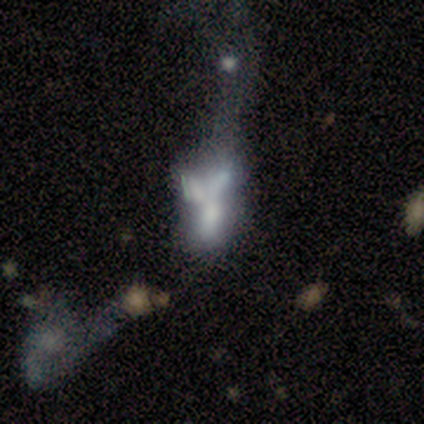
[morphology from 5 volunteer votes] This is likely a featured or disk galaxy (60%). It is likely not viewed edge-on (67%). Bar: clearly no (100%). Spiral arm pattern: clearly no (100%). Central bulge: clearly none (100%). Merging: likely merger (75%).